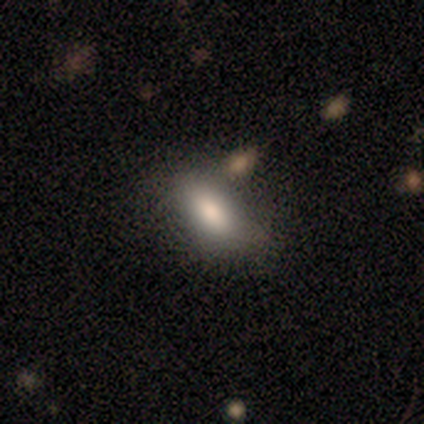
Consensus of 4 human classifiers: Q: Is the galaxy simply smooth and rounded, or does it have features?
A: smooth — 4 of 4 (100%).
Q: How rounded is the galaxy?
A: in between — 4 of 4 (100%).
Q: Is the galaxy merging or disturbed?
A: none — 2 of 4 (50%).